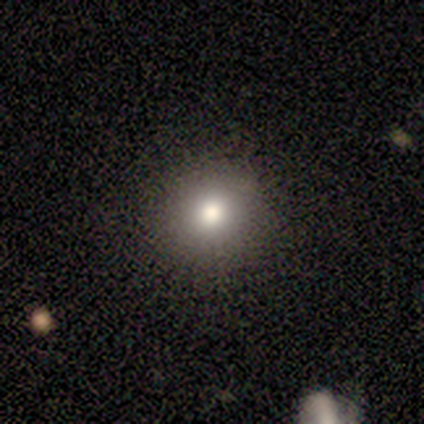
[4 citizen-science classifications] Overall: smooth (100%). How rounded: round (100%). Merging: none (100%).